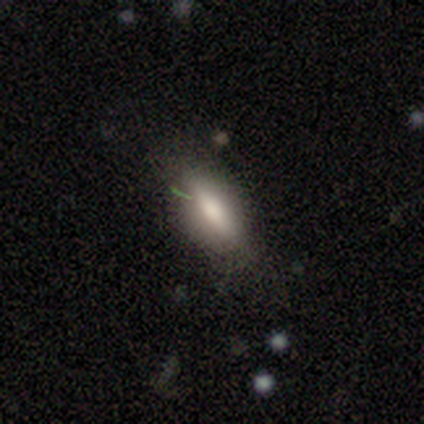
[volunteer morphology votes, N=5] smooth_or_featured: smooth (p=1.00)
how_rounded: in between (p=0.60) [alt: cigar-shaped p=0.40]
merging: none (p=0.80) [alt: major disturbance p=0.20]